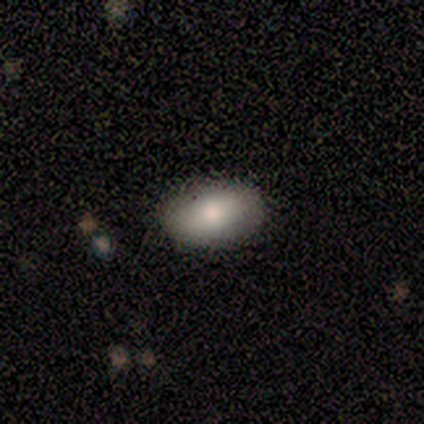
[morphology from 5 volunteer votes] Overall: smooth (80%). How rounded: in between (75%). Merging: none (100%).